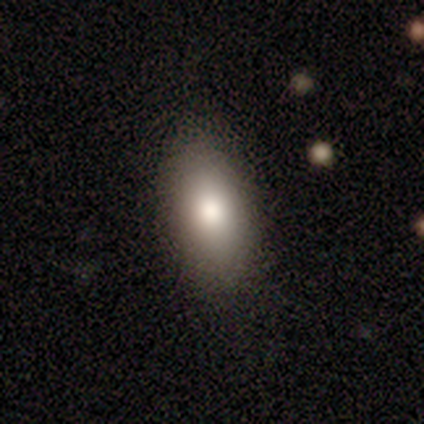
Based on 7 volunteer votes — Smooth or featured? smooth (71%)
How rounded? in between (100%)
Merging? none (100%)